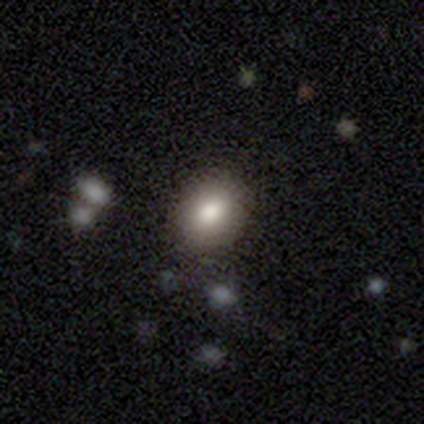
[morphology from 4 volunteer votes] smooth_or_featured: smooth (p=0.75) [alt: star or artifact p=0.25]
how_rounded: in between (p=0.67) [alt: round p=0.33]
merging: none (p=1.00)